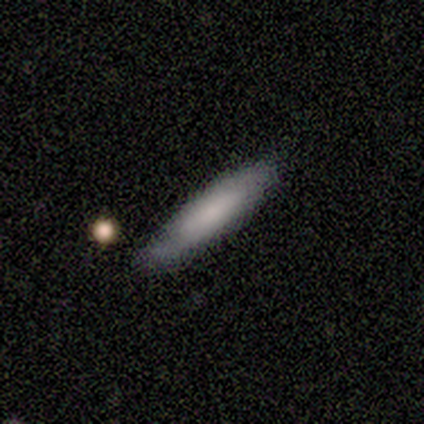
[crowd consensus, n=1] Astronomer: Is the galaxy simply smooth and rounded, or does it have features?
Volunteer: featured or disk — 100%.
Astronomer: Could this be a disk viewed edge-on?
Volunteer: yes — 100%.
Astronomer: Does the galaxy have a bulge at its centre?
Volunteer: none — 100%.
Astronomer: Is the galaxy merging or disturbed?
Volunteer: none — 100%.